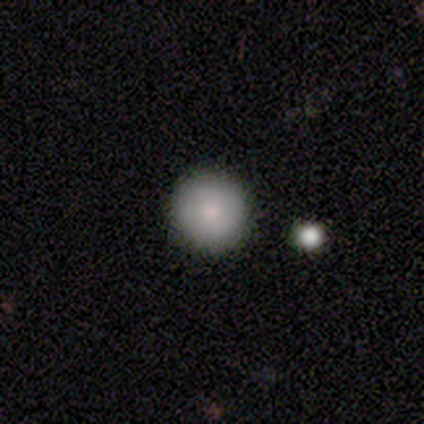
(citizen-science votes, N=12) smooth 75%, star or artifact 17%, featured or disk 8%. Down the decision tree: how rounded — round (100%); merging — none (100%).